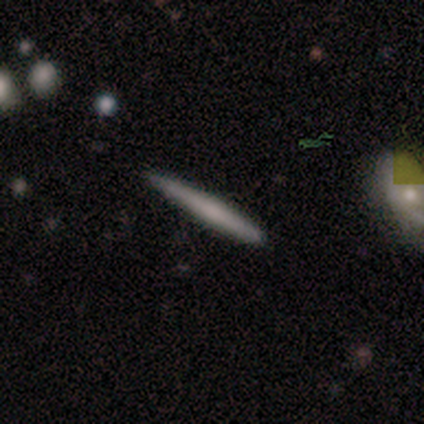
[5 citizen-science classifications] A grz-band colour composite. It shows a featured or disk galaxy (60%) viewed edge-on (100%) with no central bulge (100%). Merging: minor disturbance (60%).